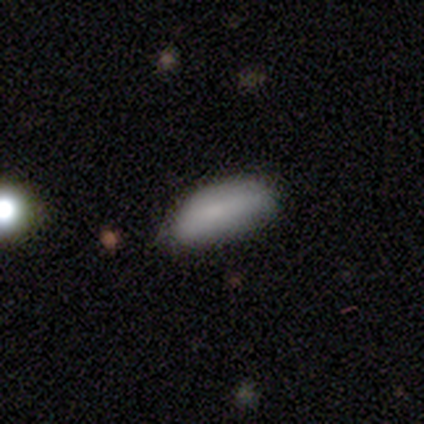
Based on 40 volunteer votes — Volunteers were most divided on "merging": none: 44%, minor disturbance: 28%, major disturbance: 3%, merger: 3%. More confident: how rounded — in between (88%); smooth or featured — smooth (80%).